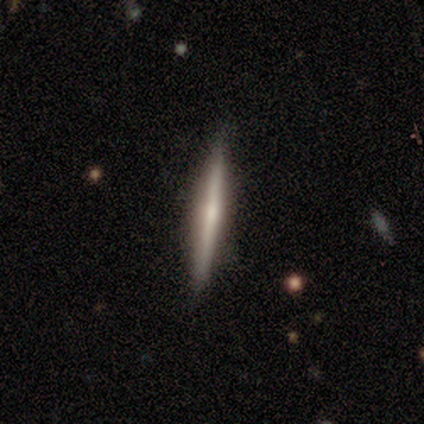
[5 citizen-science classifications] smooth_or_featured: featured or disk (p=0.60) [alt: smooth p=0.40]
disk_edge_on: yes (p=1.00)
edge_on_bulge: none (p=0.67) [alt: rounded p=0.33]
merging: none (p=1.00)